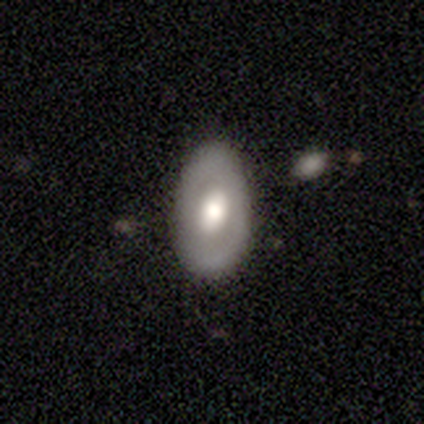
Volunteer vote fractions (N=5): Smooth or featured?
  - featured or disk: 60% *
  - smooth: 40%
  - star or artifact: 0%
Edge-on disk?
  - no: 67% *
  - yes: 33%
Bar?
  - weak: 50% * (tied)
  - no: 50% * (tied)
  - strong: 0%
Spiral arms?
  - yes: 50% * (tied)
  - no: 50% * (tied)
Spiral winding?
  - medium: 100% *
  - tight: 0%
  - loose: 0%
Spiral arm count?
  - can't tell: 100% *
  - 1: 0%
  - 2: 0%
  - 3: 0%
  - 4: 0%
  - more than 4: 0%
Bulge size?
  - moderate: 100% *
  - dominant: 0%
  - large: 0%
  - small: 0%
  - none: 0%
Merging?
  - none: 60% *
  - minor disturbance: 40%
  - major disturbance: 0%
  - merger: 0%